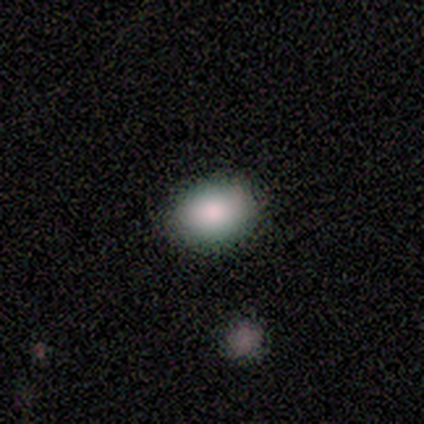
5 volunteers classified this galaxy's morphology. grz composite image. It shows a smooth galaxy with no disk features (80%) that is in between round and cigar-shaped (75%). Merging: none (75%).